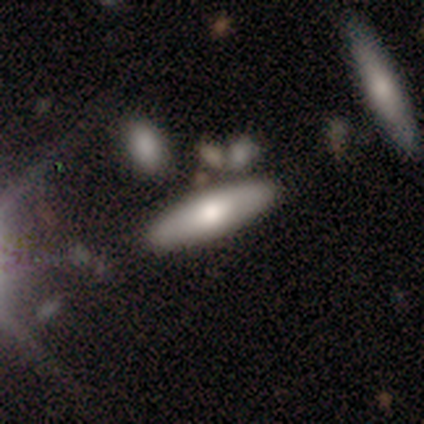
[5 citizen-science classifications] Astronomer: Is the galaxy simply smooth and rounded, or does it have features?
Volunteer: smooth — 60%.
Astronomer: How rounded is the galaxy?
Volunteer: cigar-shaped — 67%.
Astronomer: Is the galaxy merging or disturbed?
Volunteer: none — 75%.